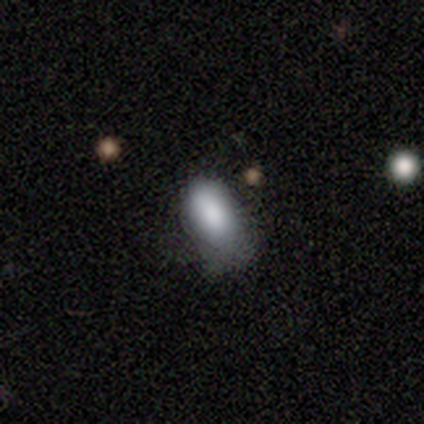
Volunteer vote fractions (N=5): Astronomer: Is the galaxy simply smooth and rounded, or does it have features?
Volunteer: smooth — 80%.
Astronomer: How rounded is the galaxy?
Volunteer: in between — 100%.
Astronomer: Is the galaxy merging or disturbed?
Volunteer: minor disturbance — 50%.